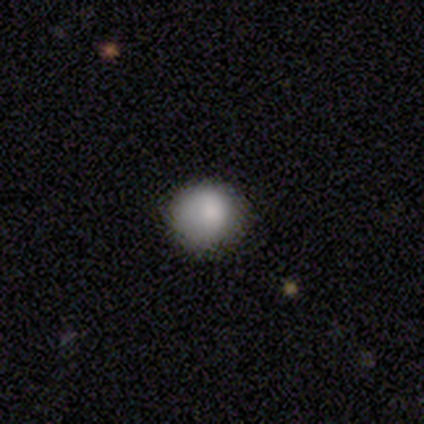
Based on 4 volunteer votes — A smooth galaxy with no disk features (100%) that is round (100%). Merging: none (75%).